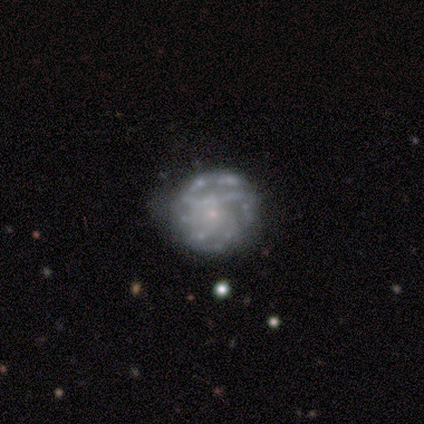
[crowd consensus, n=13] Smooth or featured: featured or disk — 62% (smooth — 31%)
Edge-on disk: no — 88% (yes — 12%)
Bar: no — 71% (strong — 14%)
Spiral arms: yes — 86% (no — 14%)
Spiral winding: tight — 67% (medium — 17%)
Spiral arm count: can't tell — 50% (4 — 33%)
Bulge size: small — 86% (none — 14%)
Merging: none — 83% (minor disturbance — 8%)